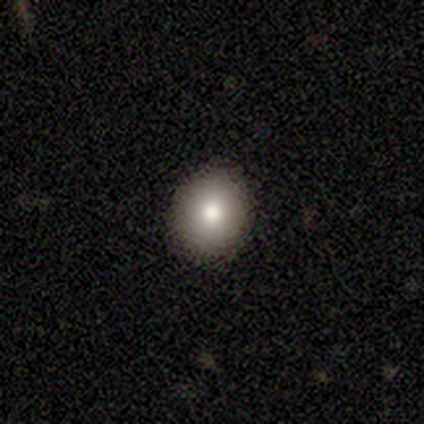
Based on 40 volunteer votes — Smooth or featured?
  - smooth: 72% *
  - star or artifact: 20%
  - featured or disk: 8%
How rounded?
  - round: 76% *
  - in between: 24%
  - cigar-shaped: 0%
Merging?
  - none: 94% *
  - minor disturbance: 3%
  - major disturbance: 3%
  - merger: 0%